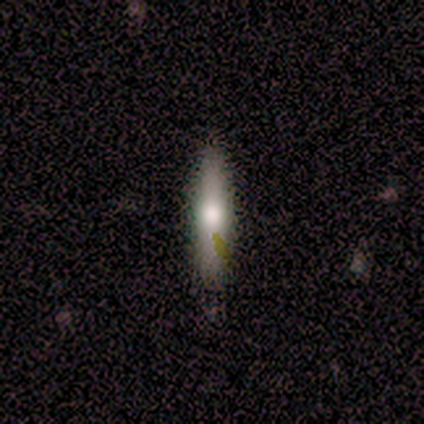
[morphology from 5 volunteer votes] Q: Smooth or featured?
A: smooth (100%)
Q: How rounded?
A: cigar-shaped (100%)
Q: Merging?
A: none (100%)